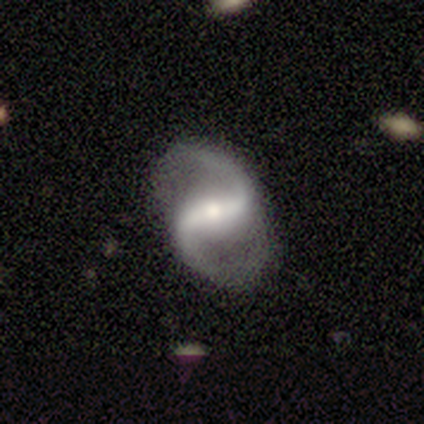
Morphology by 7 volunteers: Q: Smooth or featured?
A: featured or disk (86%); runner-up: smooth (14%)
Q: Edge-on disk?
A: no (83%); runner-up: yes (17%)
Q: Bar?
A: strong (80%); runner-up: weak (20%)
Q: Spiral arms?
A: yes (100%)
Q: Spiral winding?
A: medium (60%); runner-up: loose (40%)
Q: Spiral arm count?
A: 2 (100%)
Q: Bulge size?
A: moderate (80%); runner-up: small (20%)
Q: Merging?
A: none (86%); runner-up: merger (14%)